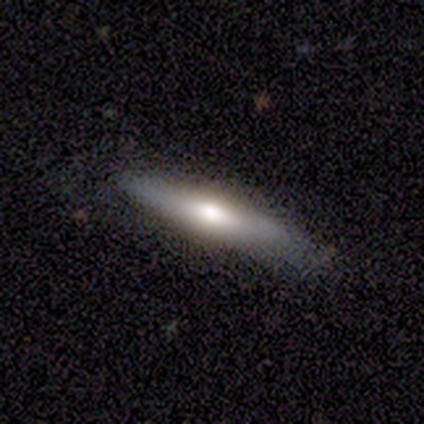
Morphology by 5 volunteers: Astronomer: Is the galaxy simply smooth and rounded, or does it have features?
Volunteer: featured or disk — 60% (runner-up: smooth, 40%).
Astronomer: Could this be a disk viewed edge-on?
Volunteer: yes — 100%.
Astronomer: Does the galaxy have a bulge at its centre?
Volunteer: rounded — 100%.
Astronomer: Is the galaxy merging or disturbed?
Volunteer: none — 100%.